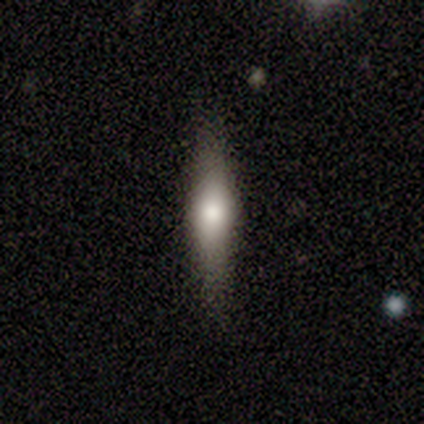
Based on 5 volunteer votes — Smooth or featured? 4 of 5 (80%) said smooth. How rounded? 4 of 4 (100%) said cigar-shaped. Merging? 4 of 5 (80%) said none.